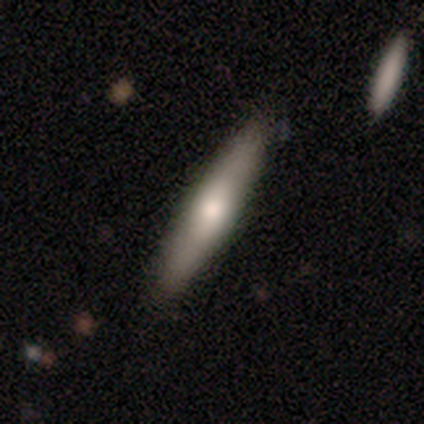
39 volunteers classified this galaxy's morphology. Smooth or featured?
  - smooth: 54% *
  - featured or disk: 41%
  - star or artifact: 5%
How rounded?
  - cigar-shaped: 86% *
  - in between: 14%
  - round: 0%
Merging?
  - none: 86% *
  - minor disturbance: 14%
  - major disturbance: 0%
  - merger: 0%